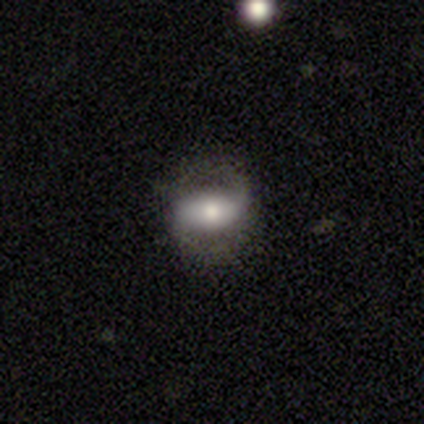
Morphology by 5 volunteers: Overall: featured or disk (80%). Edge-on disk: no (100%). Bar: strong (50%; weak 25%). Spiral arms: yes (100%). Spiral arm count: 2 (100%). Spiral winding: loose (75%). Bulge size: large (50%; dominant 25%). Merging: none (60%; minor disturbance 40%).